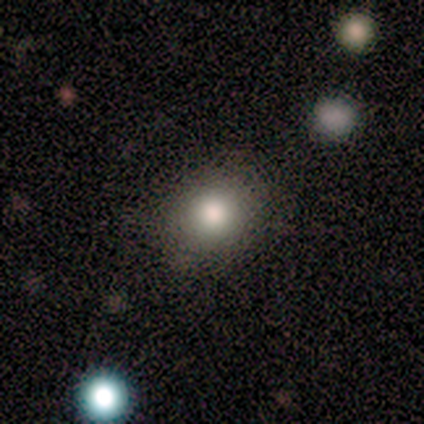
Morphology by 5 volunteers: This appears to be a smooth galaxy with no disk features (100%) that is round (80%). Merging: none (100%).